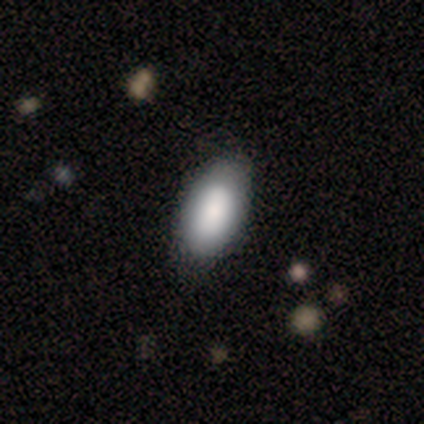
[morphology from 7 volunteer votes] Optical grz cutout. It shows a smooth galaxy with no disk features (86%) that is in between round and cigar-shaped (100%). Merging: none (86%).